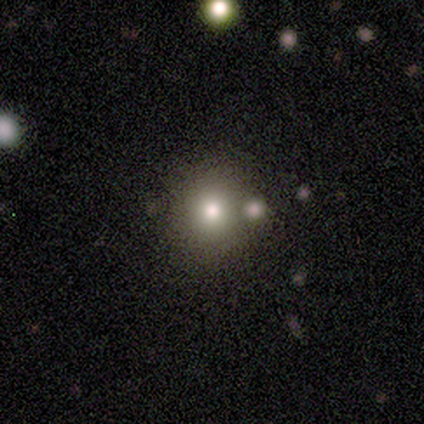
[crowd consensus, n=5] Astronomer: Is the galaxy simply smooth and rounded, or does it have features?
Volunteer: smooth — 60%.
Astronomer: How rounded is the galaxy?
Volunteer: round — 100%.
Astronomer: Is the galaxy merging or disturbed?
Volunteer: none — 75%.